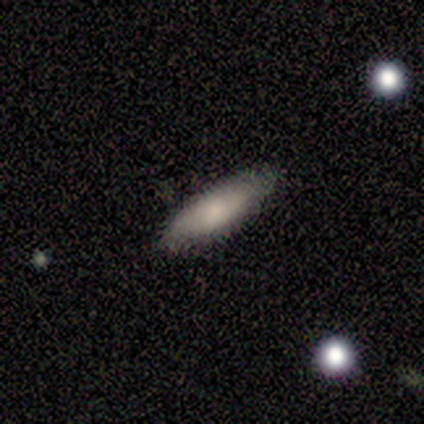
Morphology: type=smooth (60%); roundness=in between (56%); merging=none (87%).